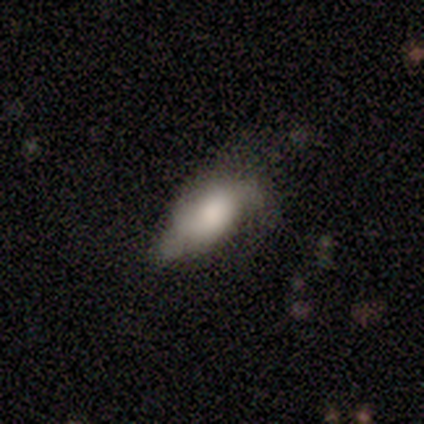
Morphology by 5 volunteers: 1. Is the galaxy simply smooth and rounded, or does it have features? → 60% smooth, 40% featured or disk, 0% star or artifact.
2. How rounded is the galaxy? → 67% in between, 33% round, 0% cigar-shaped.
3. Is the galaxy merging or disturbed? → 80% minor disturbance, 20% none, 0% major disturbance, 0% merger.